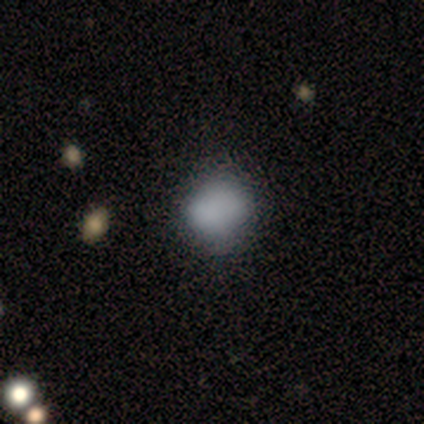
smooth_or_featured: smooth (p=0.68) [alt: star or artifact p=0.17]
how_rounded: round (p=0.63) [alt: in between p=0.37]
merging: none (p=0.61) [alt: minor disturbance p=0.15]